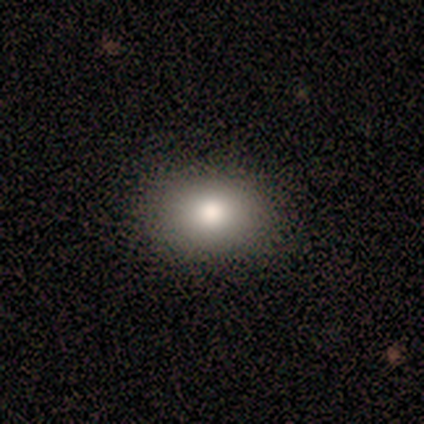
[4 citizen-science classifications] Q: Smooth or featured?
A: smooth (100%)
Q: How rounded?
A: round (100%)
Q: Merging?
A: none (100%)